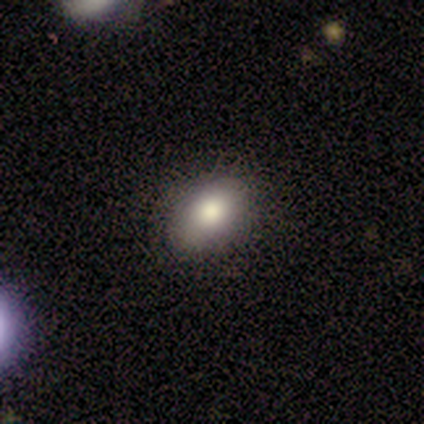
Volunteers were most divided on "smooth or featured": smooth: 80%, star or artifact: 20%, featured or disk: 0%. More confident: how rounded — in between (100%); merging — none (100%).